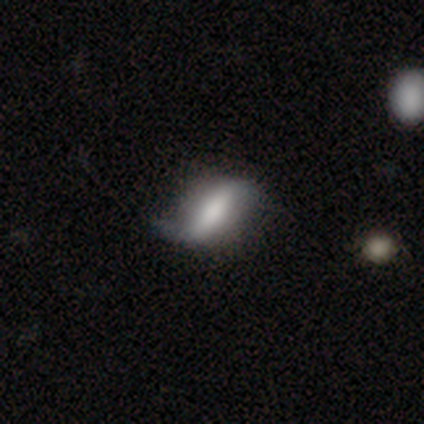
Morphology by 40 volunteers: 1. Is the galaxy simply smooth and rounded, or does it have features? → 55% featured or disk, 40% smooth, 5% star or artifact.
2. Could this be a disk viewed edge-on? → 86% no, 14% yes.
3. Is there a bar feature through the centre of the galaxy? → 58% strong, 21% weak, 21% no.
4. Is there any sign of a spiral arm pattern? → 89% yes, 11% no.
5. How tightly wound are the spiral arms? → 88% loose, 6% tight, 6% medium.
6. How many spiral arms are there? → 88% 2, 12% 1, 0% 3, 0% 4, 0% more than 4, 0% can't tell.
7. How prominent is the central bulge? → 37% none, 21% moderate, 16% dominant, 16% large, 11% small.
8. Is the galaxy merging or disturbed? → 34% none, 26% minor disturbance, 11% major disturbance, 3% merger.